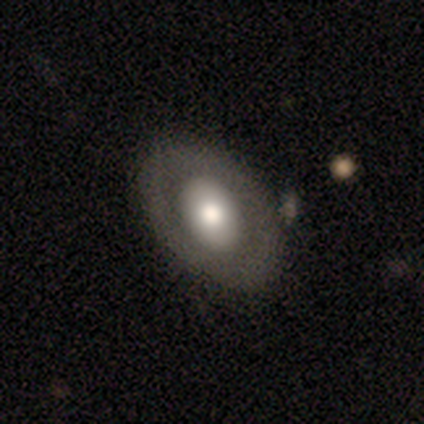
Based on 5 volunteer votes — Smooth or featured? 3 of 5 (60%) said featured or disk. Edge-on disk? 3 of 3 (100%) said no. Bar? 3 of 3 (100%) said no. Spiral arms? 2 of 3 (67%) said no. Bulge size? 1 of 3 (33%, tied with large and moderate) said dominant. Merging? 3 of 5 (60%) said none.